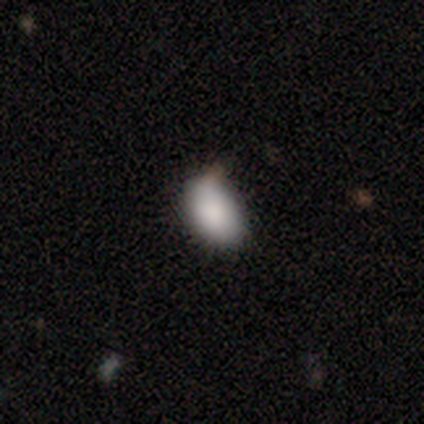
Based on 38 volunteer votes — Smooth or featured: smooth — 82% (star or artifact — 13%)
How rounded: in between — 90% (round — 10%)
Merging: none — 70% (minor disturbance — 24%)